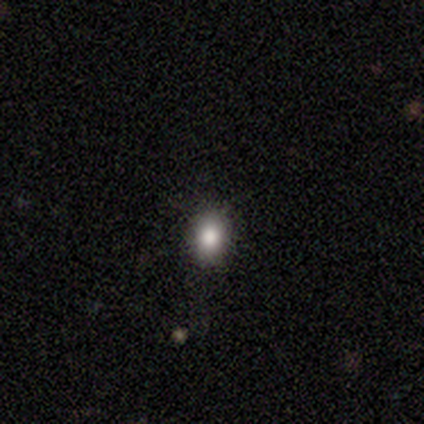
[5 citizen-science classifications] This is likely a star or artifact rather than a galaxy (60%).